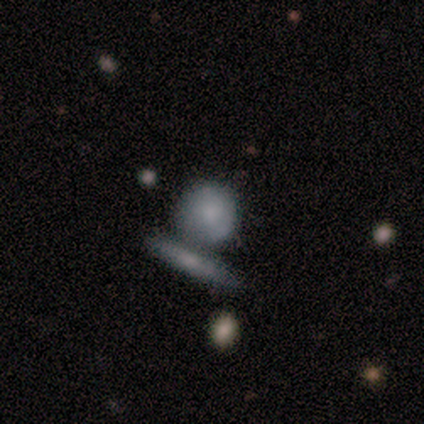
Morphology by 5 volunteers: This appears to be a featured or disk galaxy (60%) with no bar (100%), no spiral arms (100%) and a moderate central bulge (67%). Merging: none (40%, tied with merger).